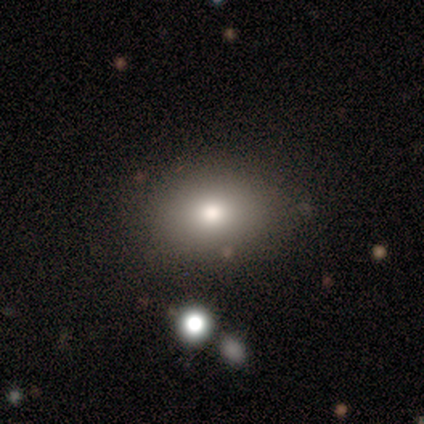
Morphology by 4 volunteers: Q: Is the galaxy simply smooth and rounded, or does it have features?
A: smooth — 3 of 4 (75%).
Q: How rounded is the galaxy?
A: in between — 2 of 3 (67%).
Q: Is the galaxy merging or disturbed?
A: none — 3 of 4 (75%).